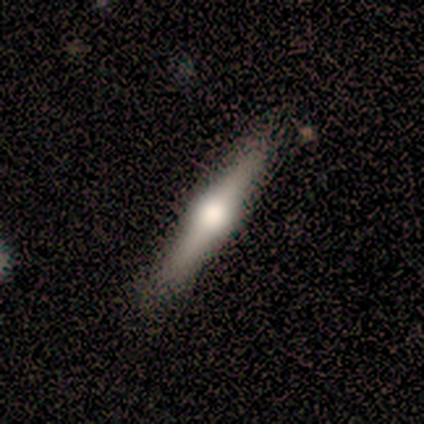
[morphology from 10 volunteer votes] This is marginally a smooth galaxy (40%). How rounded: clearly cigar-shaped (100%). Merging: clearly none (100%).